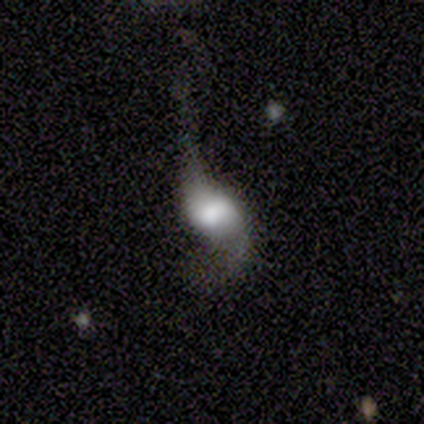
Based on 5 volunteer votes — Volunteers were most divided on "bar": no: 60%, weak: 40%, strong: 0%. More confident: smooth or featured — featured or disk (100%); edge-on disk — no (100%); spiral winding — loose (100%); spiral arm count — 2 (100%); spiral arms — yes (60%); bulge size — large (60%); merging — major disturbance (60%).